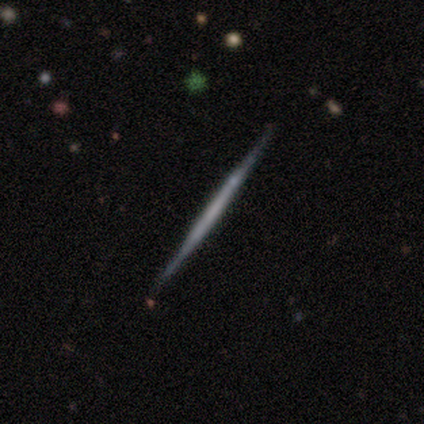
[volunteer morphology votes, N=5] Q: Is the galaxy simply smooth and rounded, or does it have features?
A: smooth — 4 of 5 (80%).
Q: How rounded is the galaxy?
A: cigar-shaped — 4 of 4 (100%).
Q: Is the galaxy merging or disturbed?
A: none — 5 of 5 (100%).